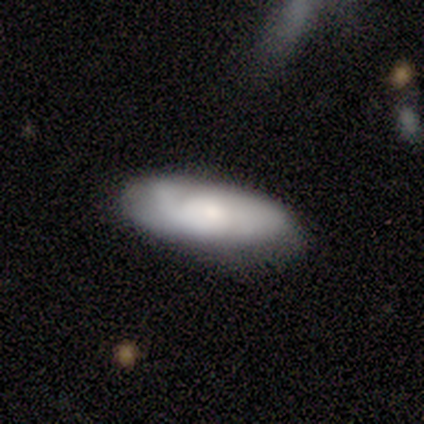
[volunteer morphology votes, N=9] Smooth or featured?
  - smooth: 44% * (tied)
  - featured or disk: 44% * (tied)
  - star or artifact: 11%
How rounded?
  - cigar-shaped: 75% *
  - in between: 25%
  - round: 0%
Merging?
  - none: 50% *
  - minor disturbance: 38%
  - major disturbance: 12%
  - merger: 0%